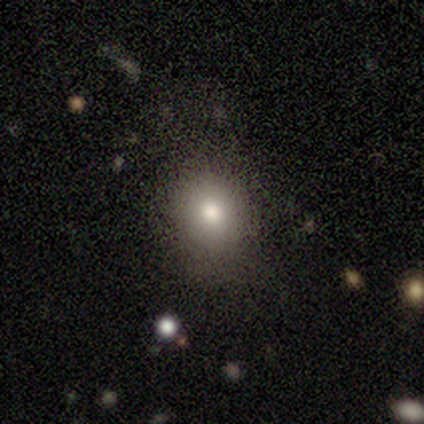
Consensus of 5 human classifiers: Volunteers were most divided on "how rounded": round: 60%, in between: 40%, cigar-shaped: 0%. More confident: smooth or featured — smooth (100%); merging — none (60%).